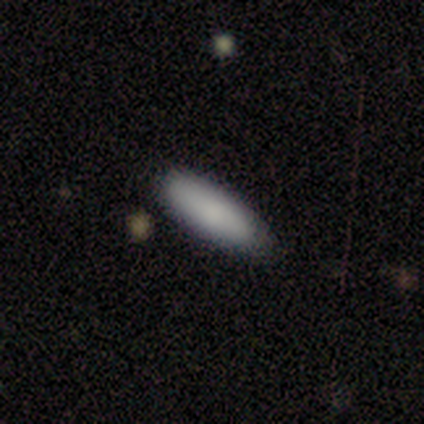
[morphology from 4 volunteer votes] Smooth or featured? 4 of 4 (100%) said smooth. How rounded? 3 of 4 (75%) said cigar-shaped. Merging? 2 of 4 (50%, tied with major disturbance) said none.